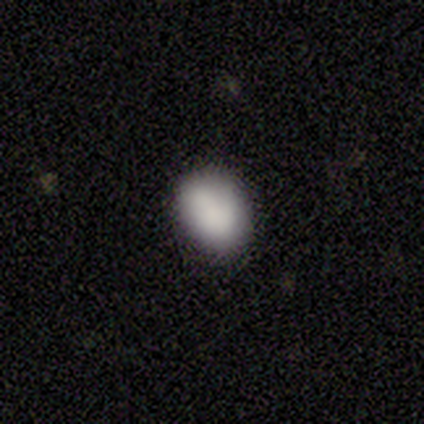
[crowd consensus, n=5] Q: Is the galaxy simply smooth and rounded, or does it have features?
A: smooth — 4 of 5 (80%).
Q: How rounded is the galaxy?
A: in between — 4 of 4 (100%).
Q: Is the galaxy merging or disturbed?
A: minor disturbance — 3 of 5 (60%).